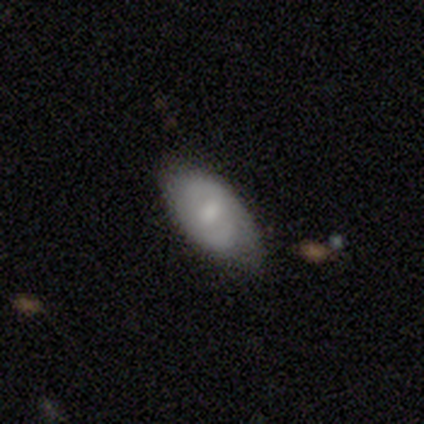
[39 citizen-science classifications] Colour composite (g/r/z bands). It shows a smooth galaxy with no disk features (54%) that is in between round and cigar-shaped (90%). Merging: none (67%).